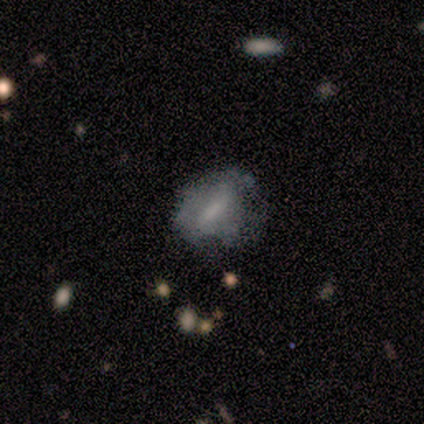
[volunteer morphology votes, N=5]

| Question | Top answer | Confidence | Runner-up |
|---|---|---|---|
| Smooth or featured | smooth | 80% | featured or disk (20%) |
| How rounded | in between | 75% | cigar-shaped (25%) |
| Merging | minor disturbance | 80% | none (20%) |